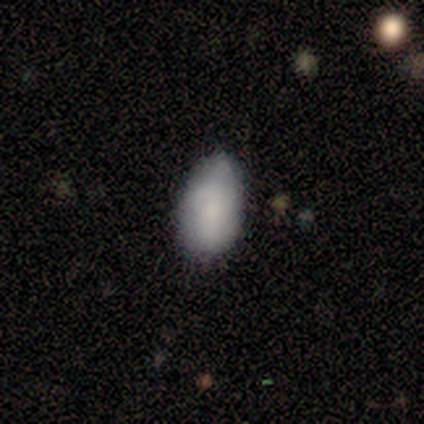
Volunteers were most divided on "smooth or featured": smooth: 60%, featured or disk: 40%, star or artifact: 0%. More confident: how rounded — in between (100%); merging — none (60%).